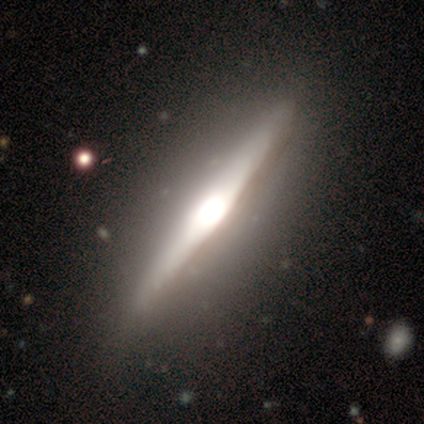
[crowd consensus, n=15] smooth-or-featured: featured or disk: 87% | smooth: 7% | star or artifact: 7%
  disk-edge-on: yes: 92% | no: 8%
    edge-on-bulge: rounded: 58% | boxy: 42% | none: 0%
  merging: none: 71% | minor disturbance: 14% | major disturbance: 7% | merger: 7%